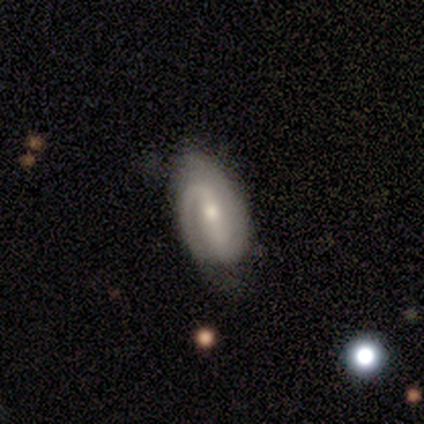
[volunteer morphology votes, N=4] A featured or disk galaxy (75%) with a strong bar (67%), 2 (67%) tight (33%, tied with medium and loose) spiral arms (100%) and a moderate central bulge (67%).

Vote fractions:
- Smooth or featured? featured or disk: 75% / smooth: 25% / star or artifact: 0%
- Edge-on disk? no: 100% / yes: 0%
- Bar? strong: 67% / weak: 33% / no: 0%
- Spiral arms? yes: 100% / no: 0%
- Spiral winding? tight: 33% (tied) / medium: 33% (tied) / loose: 33% (tied)
- Spiral arm count? 2: 67% / 1: 33% / 3: 0% / 4: 0% / more than 4: 0% / can't tell: 0%
- Bulge size? moderate: 67% / small: 33% / dominant: 0% / large: 0% / none: 0%
- Merging? none: 75% / minor disturbance: 25% / major disturbance: 0% / merger: 0%